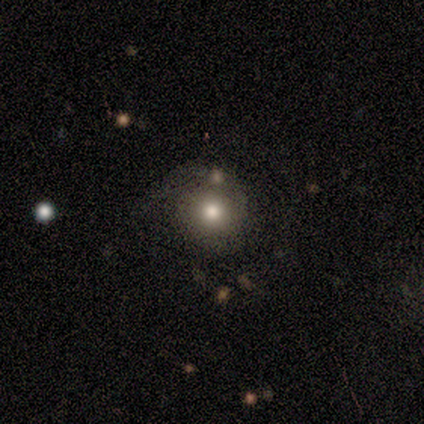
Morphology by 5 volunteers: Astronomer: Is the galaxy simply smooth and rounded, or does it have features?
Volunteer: smooth — 100%.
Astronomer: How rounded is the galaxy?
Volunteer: round — 100%.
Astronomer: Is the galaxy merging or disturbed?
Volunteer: none — 80%.